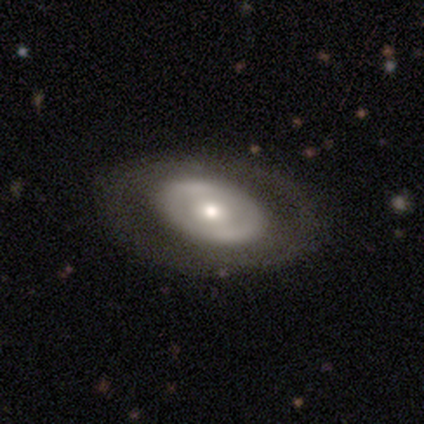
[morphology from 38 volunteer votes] Overall: featured or disk (76%). Edge-on disk: no (93%). Bar: no (81%). Spiral arms: no (74%). Bulge size: moderate (63%; small 33%). Merging: none (84%).